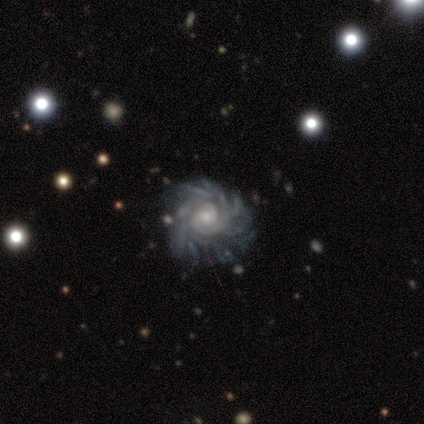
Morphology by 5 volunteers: type=featured or disk (100%); edge-on=no (100%); bar=no (60%); spiral arms=yes (100%); winding=tight (80%); arm count=more than 4 (80%); bulge=moderate (60%); merging=none (80%).